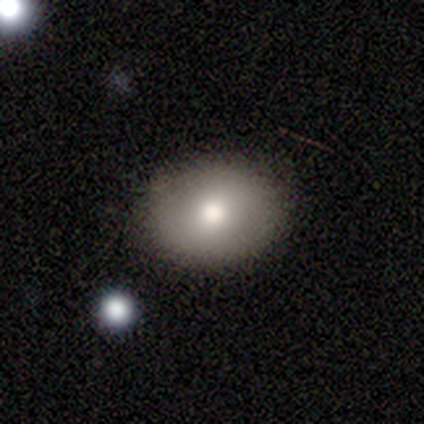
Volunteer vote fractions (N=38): Q: Smooth or featured?
A: smooth (84%); runner-up: featured or disk (13%)
Q: How rounded?
A: in between (59%); runner-up: round (38%)
Q: Merging?
A: none (89%); runner-up: minor disturbance (11%)